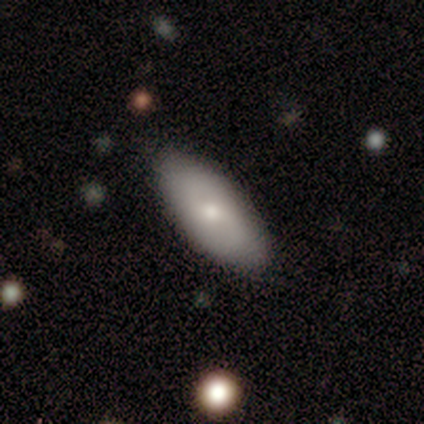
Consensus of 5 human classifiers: A smooth galaxy with no disk features (80%) that is in between round and cigar-shaped (75%). Merging: none (80%).